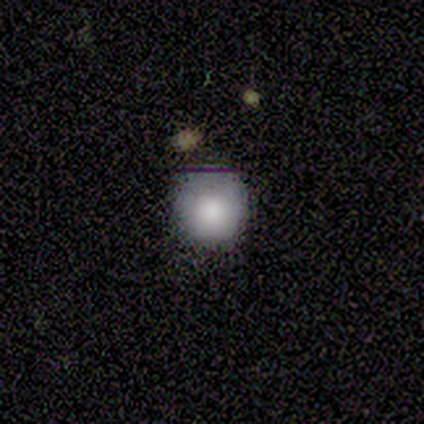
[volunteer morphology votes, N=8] Q: Smooth or featured?
A: smooth (88%); runner-up: star or artifact (12%)
Q: How rounded?
A: round (100%)
Q: Merging?
A: none (86%); runner-up: minor disturbance (14%)